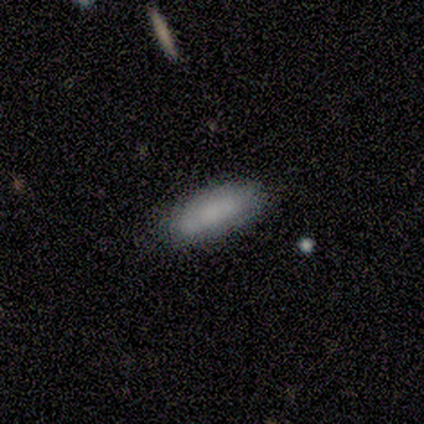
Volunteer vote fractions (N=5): This appears to be a smooth galaxy with no disk features (80%) that is in between round and cigar-shaped (75%). Merging: none (80%).